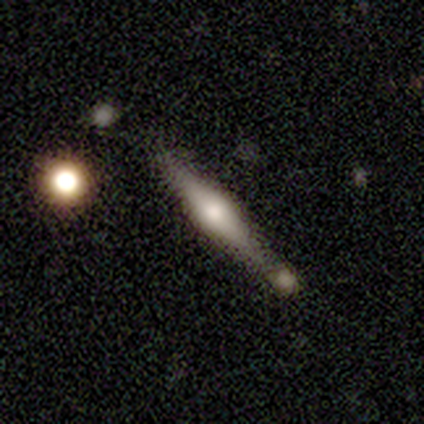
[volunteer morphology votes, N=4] Smooth or featured?
  - smooth: 50% *
  - featured or disk: 25%
  - star or artifact: 25%
How rounded?
  - cigar-shaped: 100% *
  - round: 0%
  - in between: 0%
Merging?
  - minor disturbance: 67% *
  - merger: 33%
  - none: 0%
  - major disturbance: 0%